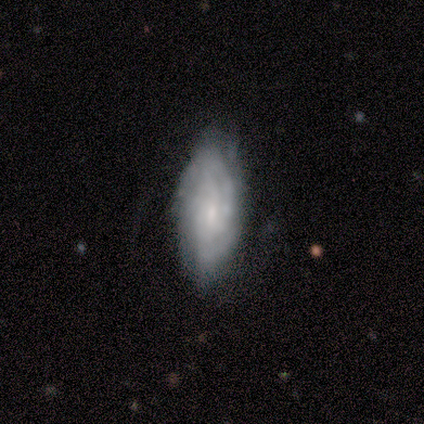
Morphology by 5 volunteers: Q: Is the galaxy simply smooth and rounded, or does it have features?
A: featured or disk — 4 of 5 (80%).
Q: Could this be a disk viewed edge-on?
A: no — 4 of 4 (100%).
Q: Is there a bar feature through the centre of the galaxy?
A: weak — 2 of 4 (50%, tied with no).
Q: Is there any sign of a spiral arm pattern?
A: yes — 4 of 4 (100%).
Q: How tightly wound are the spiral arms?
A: tight — 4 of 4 (100%).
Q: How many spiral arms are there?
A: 2 — 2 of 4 (50%, tied with can't tell).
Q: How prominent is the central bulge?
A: moderate — 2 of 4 (50%).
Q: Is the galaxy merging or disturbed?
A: major disturbance — 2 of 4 (50%).